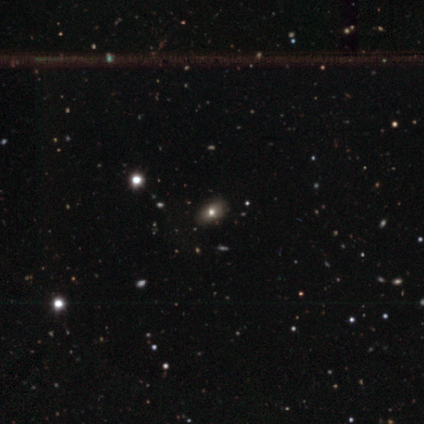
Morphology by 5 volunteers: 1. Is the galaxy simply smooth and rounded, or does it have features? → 60% smooth, 20% featured or disk, 20% star or artifact.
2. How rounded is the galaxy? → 67% in between, 33% round, 0% cigar-shaped.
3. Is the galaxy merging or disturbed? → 100% none, 0% minor disturbance, 0% major disturbance, 0% merger.